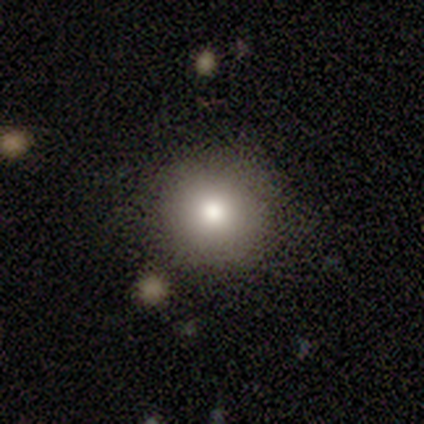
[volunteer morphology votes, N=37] A smooth galaxy with no disk features (84%) that is round (90%).

Vote fractions:
- Smooth or featured? smooth: 84% / featured or disk: 11% / star or artifact: 5%
- How rounded? round: 90% / in between: 10% / cigar-shaped: 0%
- Merging? none: 74% / minor disturbance: 14% / major disturbance: 6% / merger: 6%